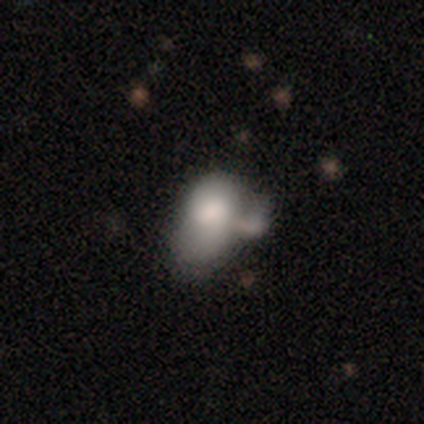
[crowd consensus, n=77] Smooth or featured? 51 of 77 (66%) said smooth. How rounded? 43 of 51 (84%) said in between. Merging? 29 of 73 (40%) said merger.